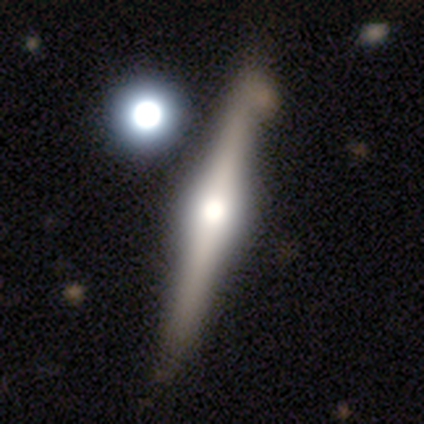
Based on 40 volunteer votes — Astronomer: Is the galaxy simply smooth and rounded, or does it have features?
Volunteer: featured or disk — 78%.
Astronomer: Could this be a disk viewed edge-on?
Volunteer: yes — 100%.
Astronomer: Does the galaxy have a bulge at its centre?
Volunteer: rounded — 97%.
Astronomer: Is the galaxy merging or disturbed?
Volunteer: none — 63%.